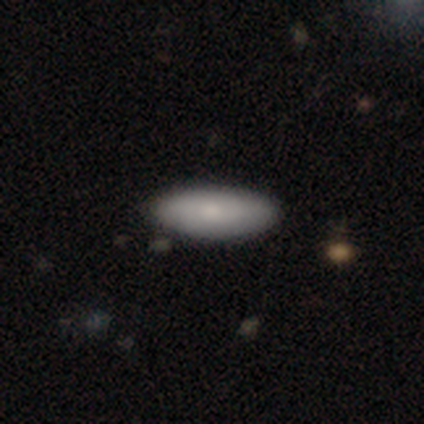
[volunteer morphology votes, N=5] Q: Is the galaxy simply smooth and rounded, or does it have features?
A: smooth — 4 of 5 (80%).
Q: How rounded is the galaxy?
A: in between — 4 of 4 (100%).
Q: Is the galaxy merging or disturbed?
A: none — 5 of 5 (100%).